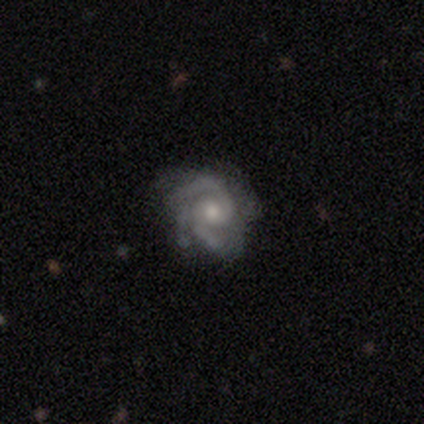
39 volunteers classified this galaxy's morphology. Smooth or featured: featured or disk — 90% (smooth — 8%)
Edge-on disk: no — 100%
Bar: no — 77% (weak — 17%)
Spiral arms: yes — 100%
Spiral winding: medium — 51% (tight — 46%)
Spiral arm count: 2 — 46% (3 — 40%)
Bulge size: small — 54% (moderate — 40%)
Merging: none — 74% (minor disturbance — 21%)